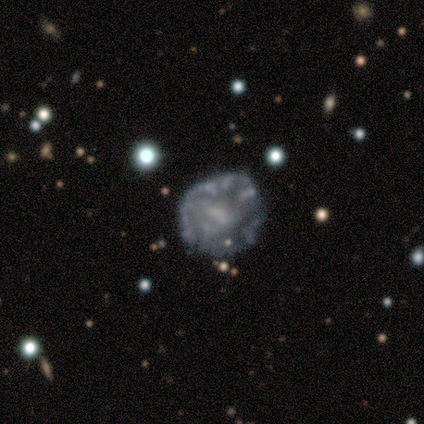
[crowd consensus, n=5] Morphology: type=featured or disk (60%); edge-on=no (100%); bar=no (100%); spiral arms=no (100%); bulge=none (100%); merging=none (60%).